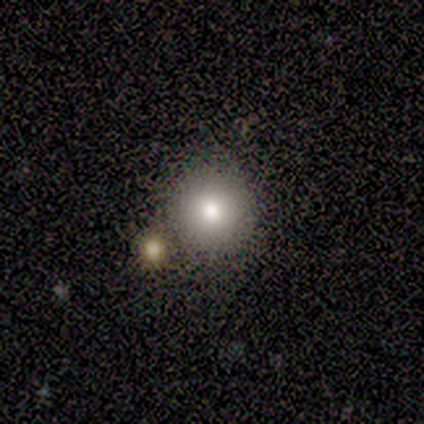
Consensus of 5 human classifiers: A smooth galaxy with no disk features (100%) that is round (100%).

Vote fractions:
- Smooth or featured? smooth: 100% / featured or disk: 0% / star or artifact: 0%
- How rounded? round: 100% / in between: 0% / cigar-shaped: 0%
- Merging? none: 100% / minor disturbance: 0% / major disturbance: 0% / merger: 0%